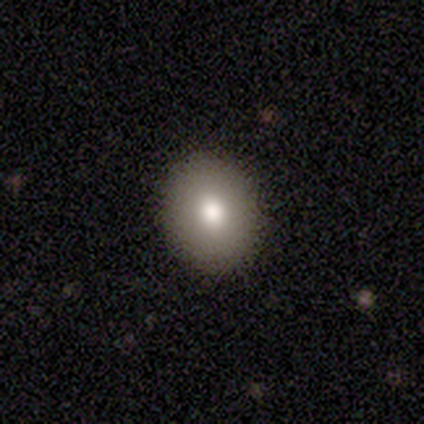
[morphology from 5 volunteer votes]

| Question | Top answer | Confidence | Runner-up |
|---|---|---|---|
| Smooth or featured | smooth | 100% | — |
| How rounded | round | 80% | in between (20%) |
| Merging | none | 100% | — |